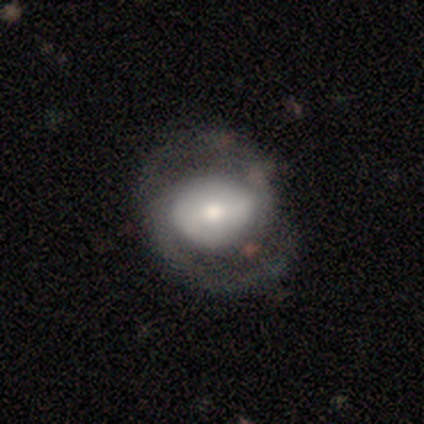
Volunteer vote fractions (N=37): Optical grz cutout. It shows a featured or disk galaxy (73%) with no bar (41%), 2 (85%) medium (56%) spiral arms (100%) and a moderate central bulge (56%). Merging: none (73%).